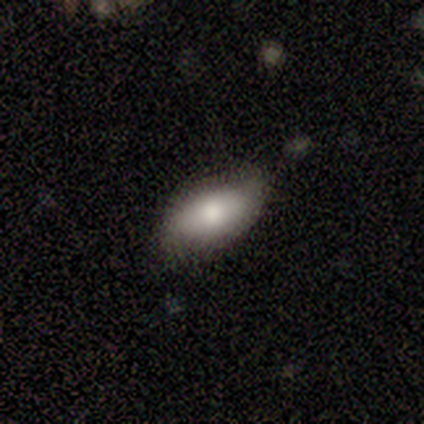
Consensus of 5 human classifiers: smooth-or-featured: smooth: 100% | featured or disk: 0% | star or artifact: 0%
  how-rounded: in between: 100% | round: 0% | cigar-shaped: 0%
  merging: none: 60% | minor disturbance: 40% | major disturbance: 0% | merger: 0%